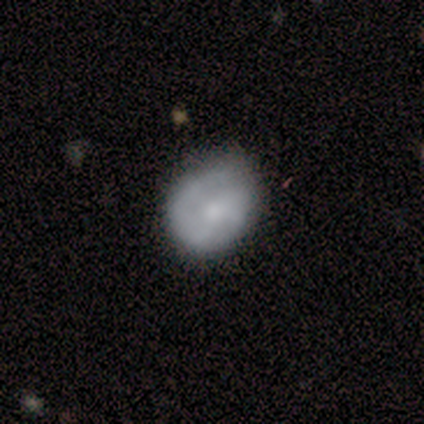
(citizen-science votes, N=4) Smooth or featured?
  - featured or disk: 75% *
  - smooth: 25%
  - star or artifact: 0%
Edge-on disk?
  - no: 100% *
  - yes: 0%
Bar?
  - weak: 67% *
  - no: 33%
  - strong: 0%
Spiral arms?
  - yes: 67% *
  - no: 33%
Spiral winding?
  - tight: 50% * (tied)
  - medium: 50% * (tied)
  - loose: 0%
Spiral arm count?
  - 2: 100% *
  - 1: 0%
  - 3: 0%
  - 4: 0%
  - more than 4: 0%
  - can't tell: 0%
Bulge size?
  - moderate: 33% * (tied)
  - small: 33% * (tied)
  - none: 33% * (tied)
  - dominant: 0%
  - large: 0%
Merging?
  - none: 50% * (tied)
  - minor disturbance: 50% * (tied)
  - major disturbance: 0%
  - merger: 0%